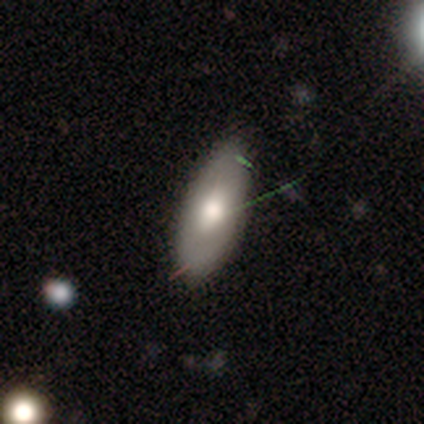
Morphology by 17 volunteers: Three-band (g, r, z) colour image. It shows a smooth galaxy with no disk features (82%) that is in between round and cigar-shaped (93%). Merging: none (62%).